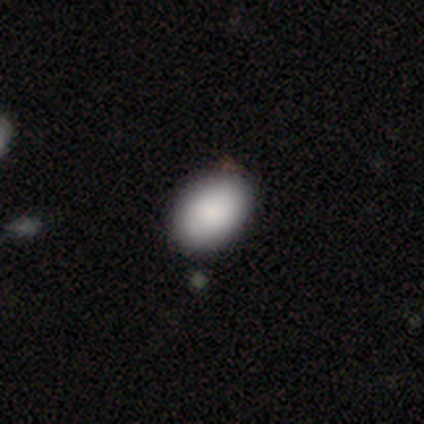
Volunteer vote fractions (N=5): Q: Smooth or featured?
A: smooth (80%); runner-up: featured or disk (20%)
Q: How rounded?
A: in between (100%)
Q: Merging?
A: none (100%)